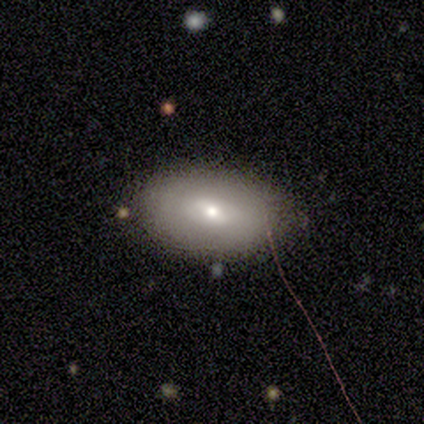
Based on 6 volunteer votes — Smooth or featured? featured or disk (67%)
Edge-on disk? no (75%)
Bar? weak (100%)
Spiral arms? no (67%)
Bulge size? small (100%)
Merging? none (80%)